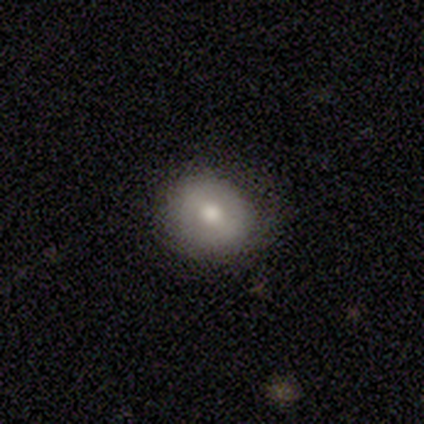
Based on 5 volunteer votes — Smooth or featured?
  - smooth: 80% *
  - featured or disk: 20%
  - star or artifact: 0%
How rounded?
  - round: 75% *
  - in between: 25%
  - cigar-shaped: 0%
Merging?
  - none: 60% *
  - minor disturbance: 20%
  - major disturbance: 20%
  - merger: 0%